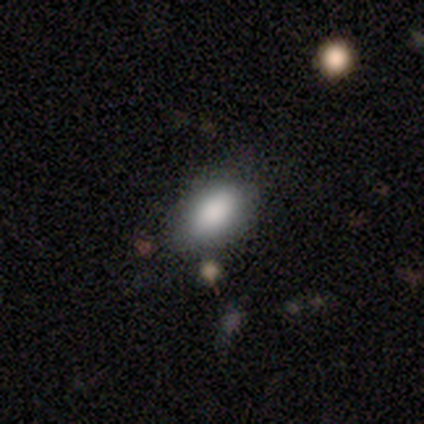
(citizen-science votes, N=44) Volunteers were most divided on "merging": none: 72%, minor disturbance: 20%, merger: 5%, major disturbance: 2%. More confident: how rounded — in between (92%); smooth or featured — smooth (89%).